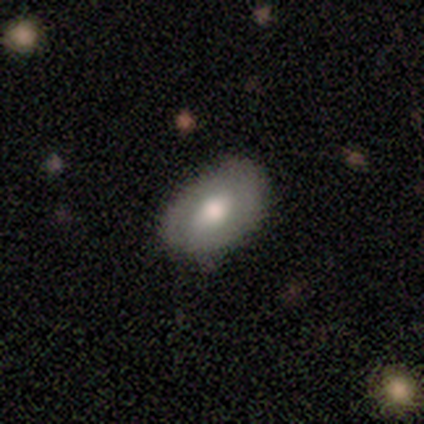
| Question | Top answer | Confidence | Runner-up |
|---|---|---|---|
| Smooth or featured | featured or disk | 60% | star or artifact (40%) |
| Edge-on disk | no | 100% | — |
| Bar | no | 67% | strong (33%) |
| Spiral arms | yes | 67% | no (33%) |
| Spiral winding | tight | 50% | tied: loose (50%) |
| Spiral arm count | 2 | 50% | tied: can't tell (50%) |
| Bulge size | moderate | 67% | large (33%) |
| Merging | none | 100% | — |